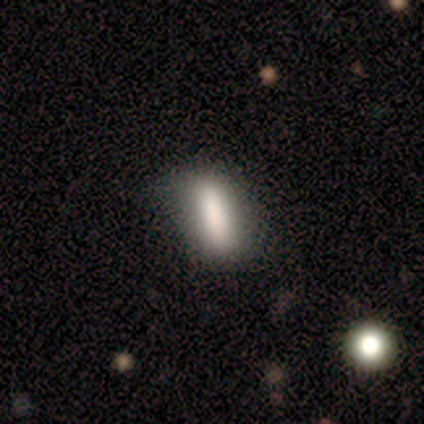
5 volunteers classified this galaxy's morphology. Smooth or featured: smooth — 100%
How rounded: in between — 40% (tied with cigar-shaped — 40%)
Merging: none — 60% (minor disturbance — 40%)